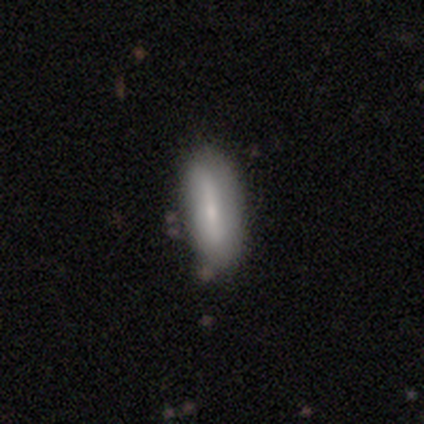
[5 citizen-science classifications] A smooth galaxy with no disk features (80%) that is in between round and cigar-shaped (50%, tied with cigar-shaped).

Vote fractions:
- Smooth or featured? smooth: 80% / featured or disk: 20% / star or artifact: 0%
- How rounded? in between: 50% (tied) / cigar-shaped: 50% (tied) / round: 0%
- Merging? none: 60% / minor disturbance: 40% / major disturbance: 0% / merger: 0%